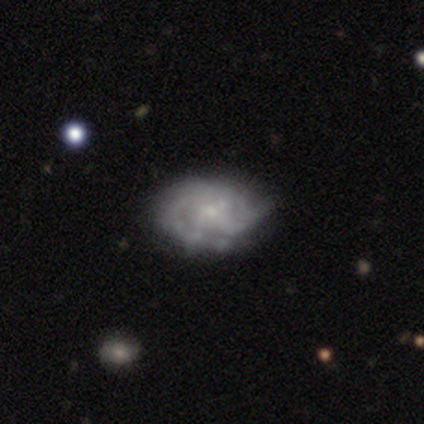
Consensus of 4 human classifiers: smooth_or_featured: featured or disk (p=0.75) [alt: smooth p=0.25]
disk_edge_on: no (p=1.00)
bar: no (p=0.67) [alt: weak p=0.33]
has_spiral_arms: yes (p=0.67) [alt: no p=0.33]
spiral_winding: tight (p=1.00)
spiral_arm_count: 3 (p=0.50) [tied with: 4 p=0.50]
bulge_size: moderate (p=0.33) [tied with: small p=0.33, none p=0.33]
merging: minor disturbance (p=0.50) [alt: none p=0.25]